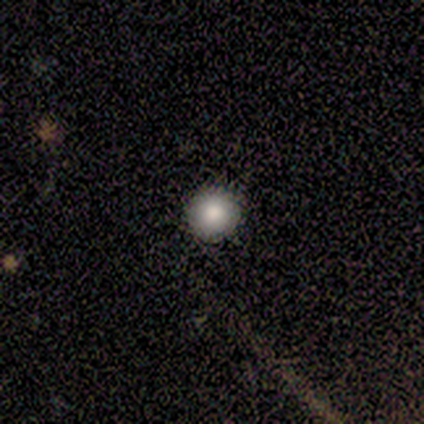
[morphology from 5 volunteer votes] A smooth galaxy with no disk features (80%) that is round (100%). Merging: none (100%).